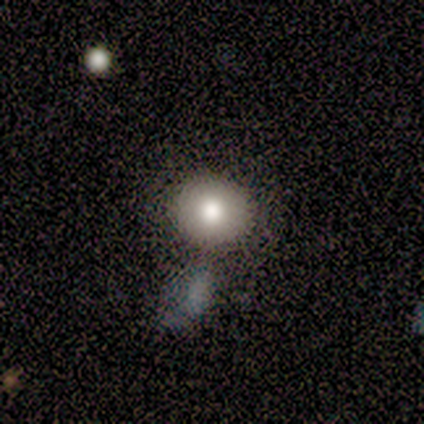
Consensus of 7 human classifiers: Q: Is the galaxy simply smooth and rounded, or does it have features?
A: smooth — 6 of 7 (86%).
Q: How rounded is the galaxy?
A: round — 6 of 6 (100%).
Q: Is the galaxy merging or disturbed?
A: none — 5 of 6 (83%).